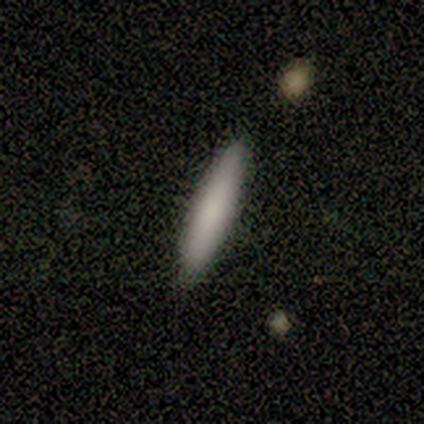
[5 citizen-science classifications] A smooth galaxy with no disk features (60%) that is cigar-shaped (67%). Merging: minor disturbance (75%).